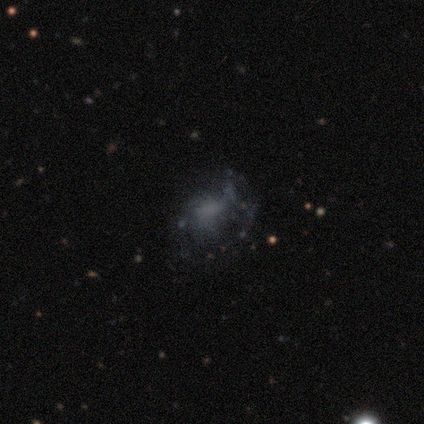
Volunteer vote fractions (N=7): This appears to be a smooth galaxy with no disk features (43%, tied with featured or disk) that is round (67%). Merging: minor disturbance (67%).